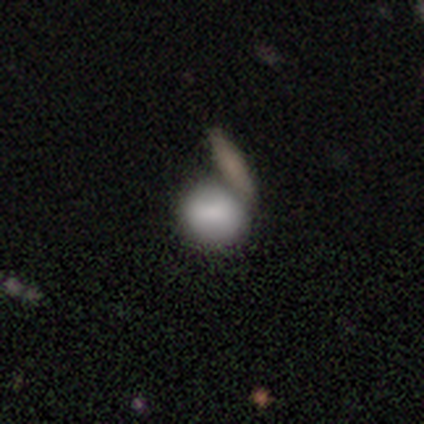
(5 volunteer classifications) Overall: featured or disk (60%; smooth 40%). Edge-on disk: no (67%; yes 33%). Bar: weak (100%). Spiral arms: no (100%). Bulge size: moderate (100%). Merging: none (40%, tied with merger).